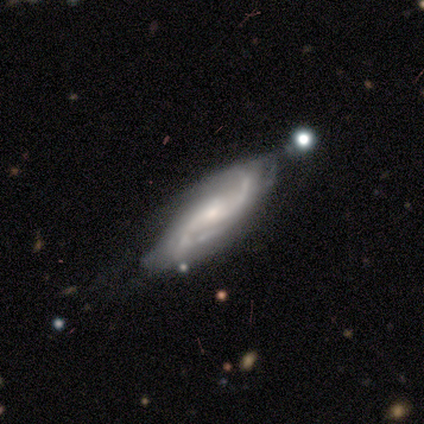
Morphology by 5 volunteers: A featured or disk galaxy (100%) with a weak bar (50%, tied with no), 2 (75%) medium (100%) spiral arms (100%) and a moderate central bulge (50%). Merging: none (60%).